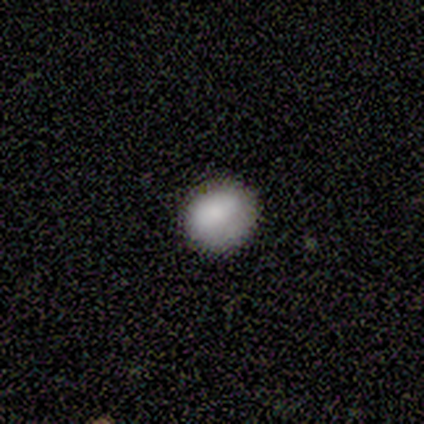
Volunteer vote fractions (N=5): Volunteers were most divided on "how rounded": round: 75%, in between: 25%, cigar-shaped: 0%. More confident: smooth or featured — smooth (80%); merging — none (75%).